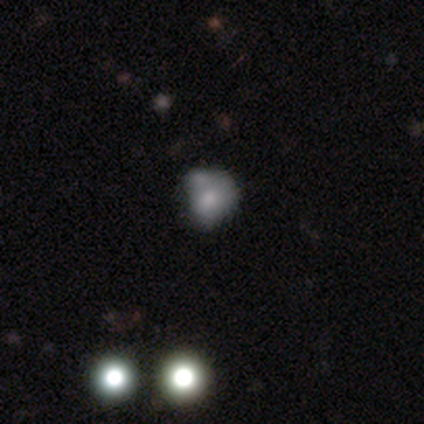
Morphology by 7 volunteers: Smooth or featured? 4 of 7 (57%) said smooth. How rounded? 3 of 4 (75%) said round. Merging? 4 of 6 (67%) said minor disturbance.